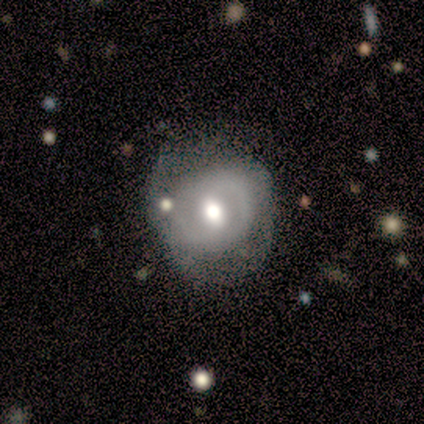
featured or disk 60%, smooth 40%, star or artifact 0%. Down the decision tree: edge-on disk — no (100%); bar — weak (100%); spiral arms — yes (67%); spiral arm count — 2 (100%); spiral winding — tight (50%, tied with loose); bulge size — moderate (67%); merging — none (40%, tied with minor disturbance).